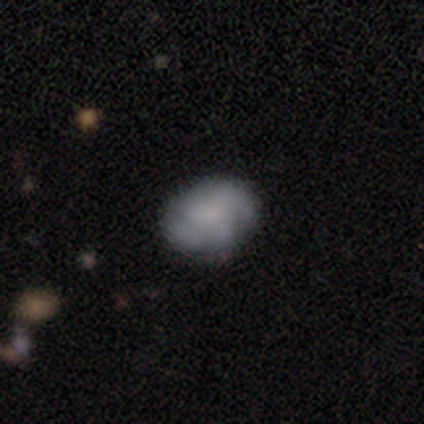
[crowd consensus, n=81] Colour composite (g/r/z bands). It shows a featured or disk galaxy (56%) with no bar (67%), 2 (30%, tied with can't tell) tight (43%) spiral arms (51%) and no central bulge (49%). Merging: none (40%).